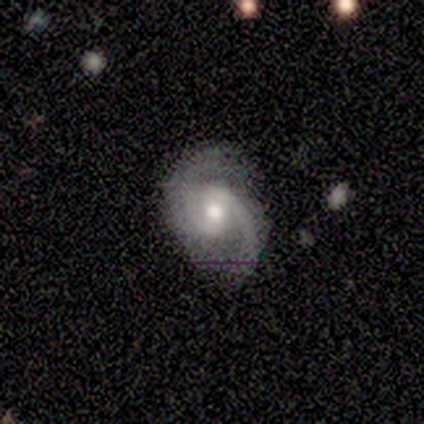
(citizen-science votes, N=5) Smooth or featured? featured or disk (100%)
Edge-on disk? no (100%)
Bar? no (60%)
Spiral arms? yes (100%)
Spiral winding? medium (60%)
Spiral arm count? 2 (60%)
Bulge size? moderate (100%)
Merging? none (80%)